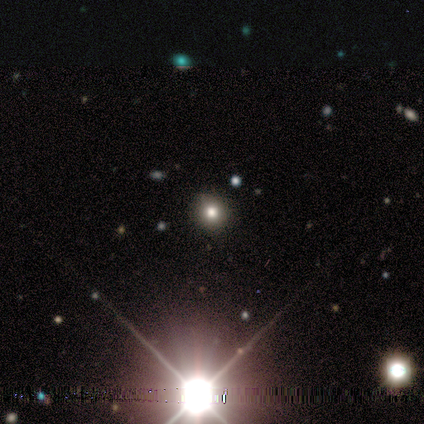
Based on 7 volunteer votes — Smooth or featured?
  - star or artifact: 57% *
  - smooth: 43%
  - featured or disk: 0%